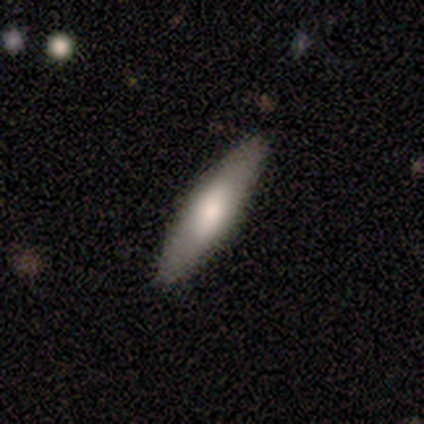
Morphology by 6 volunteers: This appears to be a smooth galaxy with no disk features (50%, tied with featured or disk) that is cigar-shaped (100%). Merging: none (100%).